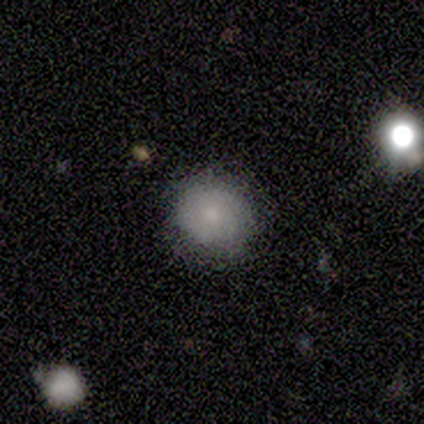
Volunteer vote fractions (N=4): smooth 75%, star or artifact 25%, featured or disk 0%. Down the decision tree: how rounded — round (100%); merging — none (100%).